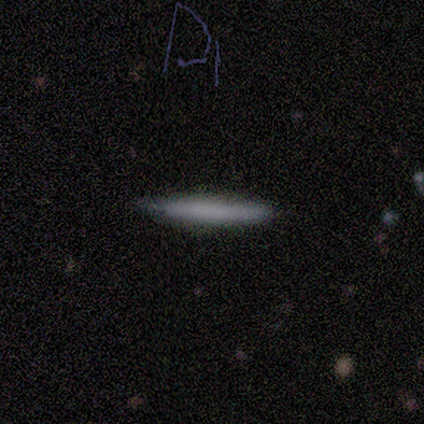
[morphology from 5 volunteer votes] Overall: smooth (100%). How rounded: cigar-shaped (100%). Merging: none (100%).